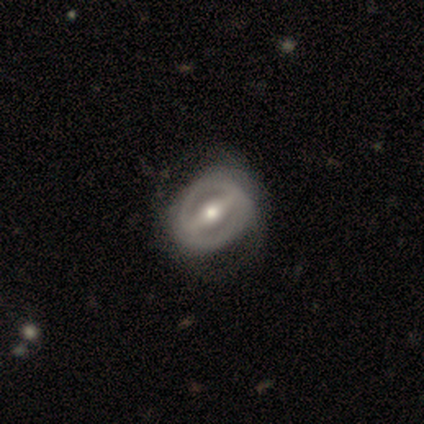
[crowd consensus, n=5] Smooth or featured?
  - featured or disk: 100% *
  - smooth: 0%
  - star or artifact: 0%
Edge-on disk?
  - no: 80% *
  - yes: 20%
Bar?
  - strong: 75% *
  - no: 25%
  - weak: 0%
Spiral arms?
  - yes: 50% * (tied)
  - no: 50% * (tied)
Spiral winding?
  - medium: 100% *
  - tight: 0%
  - loose: 0%
Spiral arm count?
  - 2: 100% *
  - 1: 0%
  - 3: 0%
  - 4: 0%
  - more than 4: 0%
  - can't tell: 0%
Bulge size?
  - moderate: 100% *
  - dominant: 0%
  - large: 0%
  - small: 0%
  - none: 0%
Merging?
  - none: 80% *
  - major disturbance: 20%
  - minor disturbance: 0%
  - merger: 0%